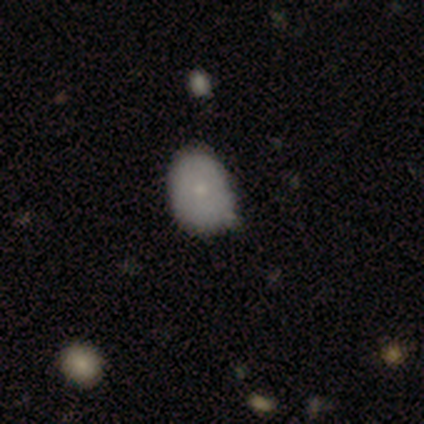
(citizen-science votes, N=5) A smooth galaxy with no disk features (80%) that is in between round and cigar-shaped (75%). Merging: minor disturbance (50%).